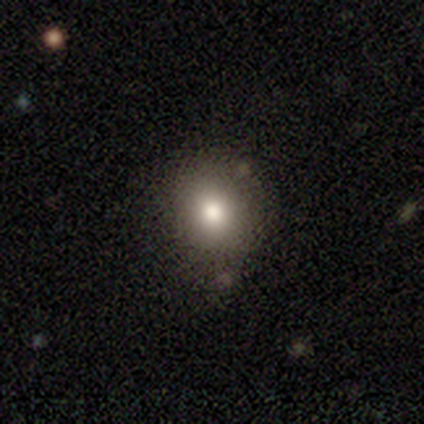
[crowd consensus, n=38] Smooth or featured? smooth (87%)
How rounded? round (79%)
Merging? none (86%)